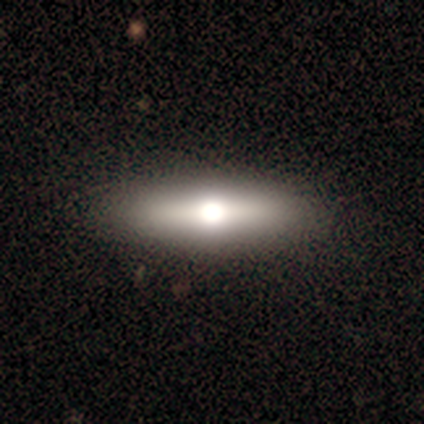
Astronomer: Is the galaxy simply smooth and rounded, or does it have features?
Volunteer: smooth — 56% (runner-up: featured or disk, 39%).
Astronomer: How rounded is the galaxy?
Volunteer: in between — 60% (runner-up: cigar-shaped, 38%).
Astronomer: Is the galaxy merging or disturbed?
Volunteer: none — 43%.